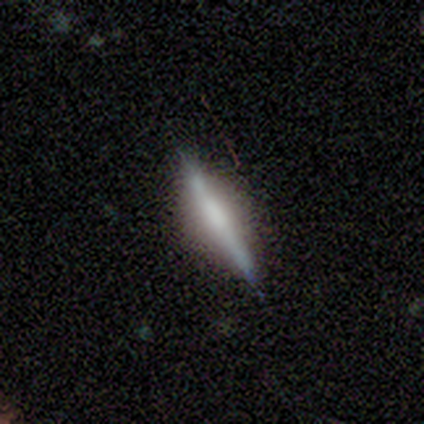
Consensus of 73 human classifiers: Morphology: type=featured or disk (75%); edge-on=yes (96%); edge-on bulge=rounded (47%); merging=none (74%).